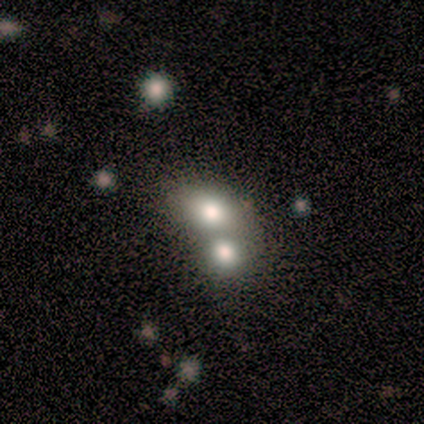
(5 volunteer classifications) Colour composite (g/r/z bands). It shows a featured or disk galaxy (60%) with no bar (100%), no spiral arms (67%) and a large central bulge (33%, tied with moderate and none). Merging: merger (100%).